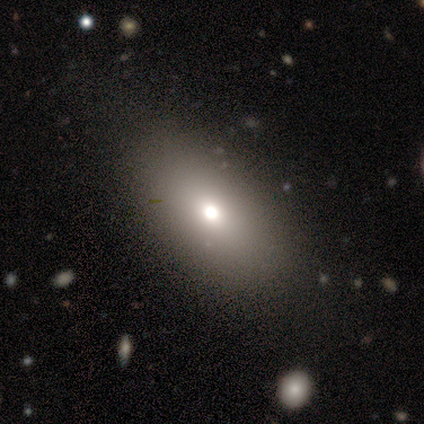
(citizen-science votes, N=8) Smooth or featured: smooth — 88% (star or artifact — 12%)
How rounded: in between — 86% (cigar-shaped — 14%)
Merging: none — 86% (minor disturbance — 14%)